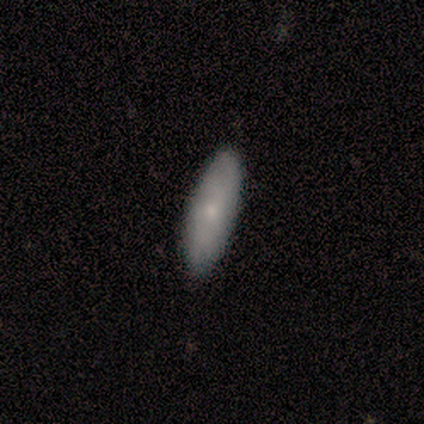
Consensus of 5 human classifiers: Morphology: type=smooth (100%); roundness=in between (60%); merging=none (100%).